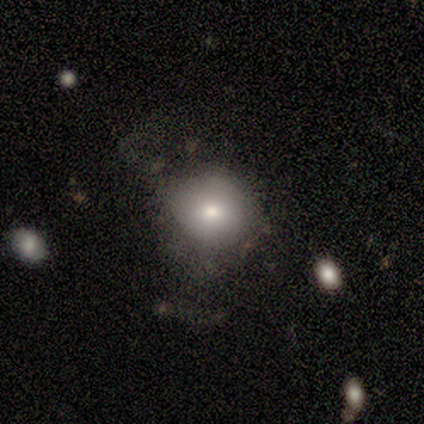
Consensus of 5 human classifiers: smooth 60%, featured or disk 40%, star or artifact 0%. Down the decision tree: how rounded — round (67%); merging — minor disturbance (40%, tied with major disturbance).